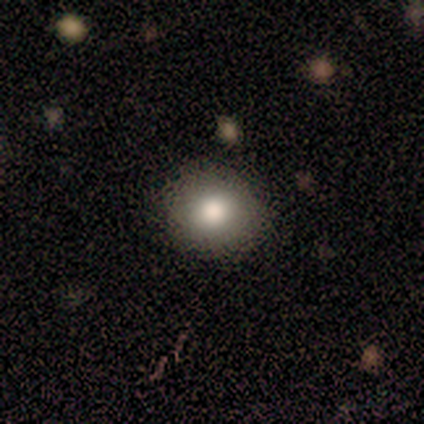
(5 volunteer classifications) A smooth galaxy with no disk features (100%) that is round (100%).

Vote fractions:
- Smooth or featured? smooth: 100% / featured or disk: 0% / star or artifact: 0%
- How rounded? round: 100% / in between: 0% / cigar-shaped: 0%
- Merging? none: 80% / major disturbance: 20% / minor disturbance: 0% / merger: 0%